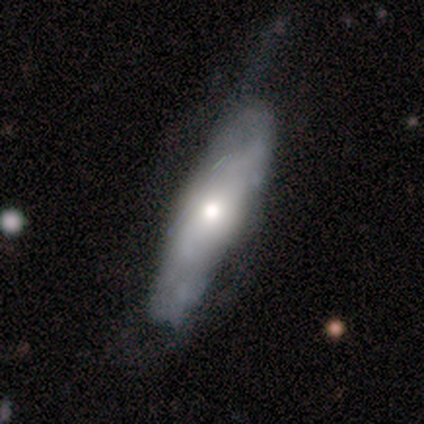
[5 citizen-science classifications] A featured or disk galaxy (60%) with a weak bar (50%, tied with no), tight (50%, tied with loose) spiral arms (100%) and a large central bulge (50%, tied with moderate). Merging: none (60%).